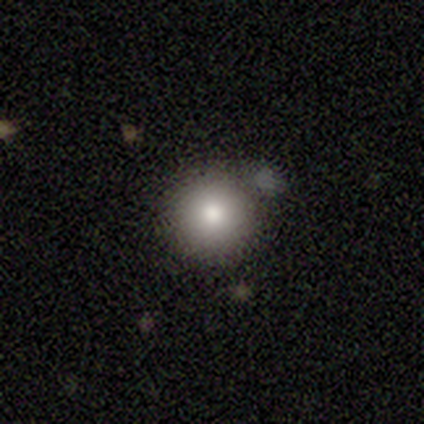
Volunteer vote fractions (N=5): A smooth galaxy with no disk features (80%) that is round (100%). Merging: none (75%).